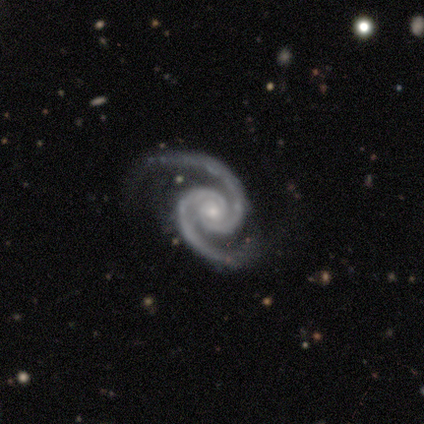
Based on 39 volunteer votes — Smooth or featured: featured or disk — 92% (star or artifact — 5%)
Edge-on disk: no — 100%
Bar: no — 72% (weak — 17%)
Spiral arms: yes — 100%
Spiral winding: tight — 56% (medium — 36%)
Spiral arm count: 2 — 97% (can't tell — 3%)
Bulge size: small — 69% (moderate — 22%)
Merging: none — 86% (major disturbance — 8%)